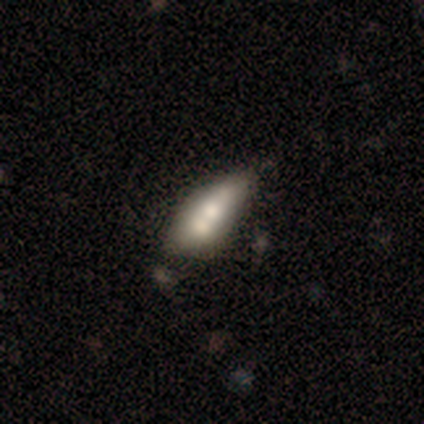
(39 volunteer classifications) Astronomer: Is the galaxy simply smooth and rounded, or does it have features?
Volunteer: featured or disk — 51% (runner-up: smooth, 49%).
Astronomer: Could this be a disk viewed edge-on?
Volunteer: no — 85%.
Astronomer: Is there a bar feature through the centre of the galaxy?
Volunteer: no — 88%.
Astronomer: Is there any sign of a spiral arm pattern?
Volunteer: no — 100%.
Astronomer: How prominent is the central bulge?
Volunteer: moderate — 71%.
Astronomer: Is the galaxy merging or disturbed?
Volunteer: merger — 56%.